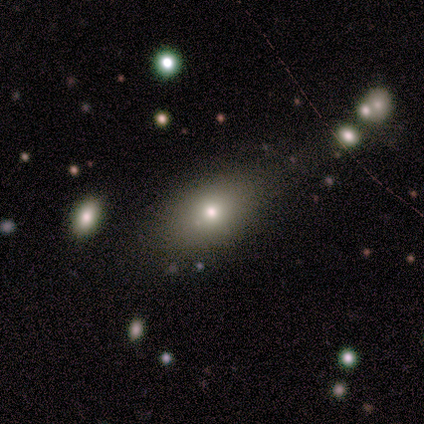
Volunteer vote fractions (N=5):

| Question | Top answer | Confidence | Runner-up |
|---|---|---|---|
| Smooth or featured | smooth | 80% | featured or disk (20%) |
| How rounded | in between | 75% | round (25%) |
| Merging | none | 80% | minor disturbance (20%) |